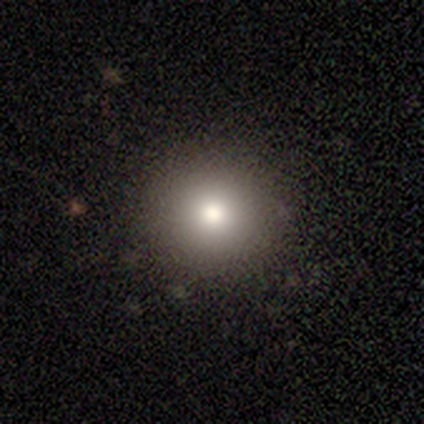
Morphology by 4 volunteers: This appears to be a smooth galaxy with no disk features (75%) that is round (100%). Merging: none (75%).